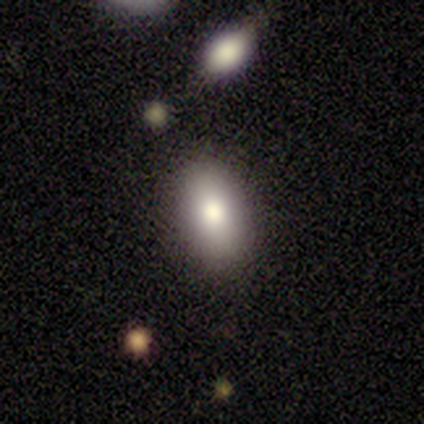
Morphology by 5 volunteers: This is clearly a smooth galaxy (100%). How rounded: clearly in between (100%). Merging: clearly none (80%).